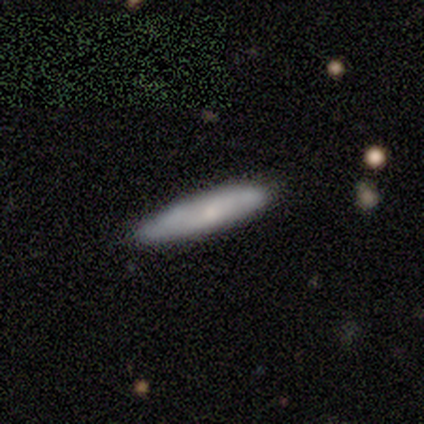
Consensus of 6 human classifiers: A smooth galaxy with no disk features (67%) that is cigar-shaped (100%). Merging: none (67%).